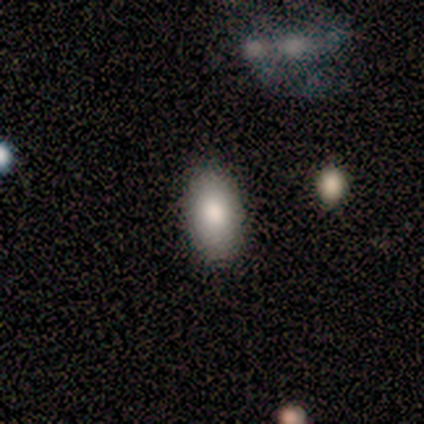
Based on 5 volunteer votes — Morphology: type=smooth (60%); roundness=in between (100%); merging=none (100%).